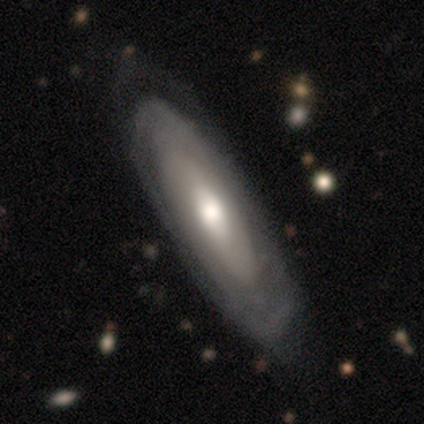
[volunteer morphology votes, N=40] A featured or disk galaxy (72%) with no bar (62%), tight (64%) spiral arms (58%) and a moderate central bulge (46%).

Vote fractions:
- Smooth or featured? featured or disk: 72% / smooth: 28% / star or artifact: 0%
- Edge-on disk? no: 83% / yes: 17%
- Bar? no: 62% / weak: 25% / strong: 12%
- Spiral arms? yes: 58% / no: 42%
- Spiral winding? tight: 64% / medium: 29% / loose: 7%
- Spiral arm count? can't tell: 79% / 2: 14% / more than 4: 7% / 1: 0% / 3: 0% / 4: 0%
- Bulge size? moderate: 46% / large: 38% / small: 17% / dominant: 0% / none: 0%
- Merging? none: 45% / minor disturbance: 18% / major disturbance: 10% / merger: 2%